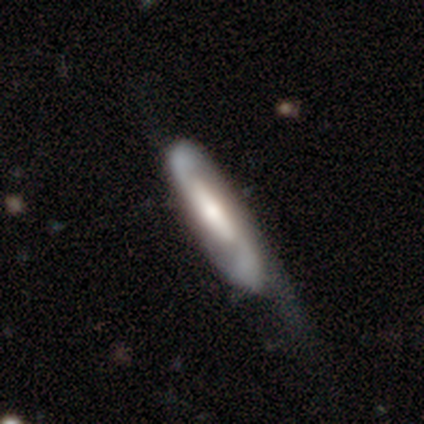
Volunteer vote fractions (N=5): Smooth or featured: smooth — 60% (featured or disk — 20%)
How rounded: cigar-shaped — 67% (in between — 33%)
Merging: major disturbance — 75% (minor disturbance — 25%)